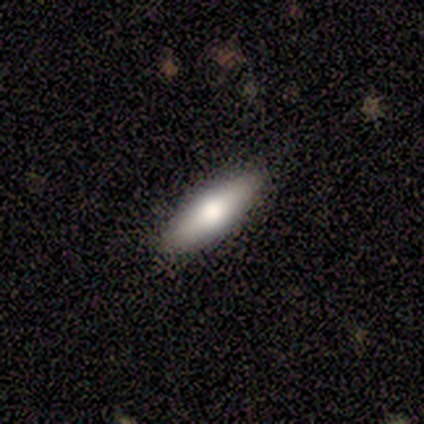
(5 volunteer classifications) Morphology: type=smooth (80%); roundness=cigar-shaped (75%); merging=none (75%).